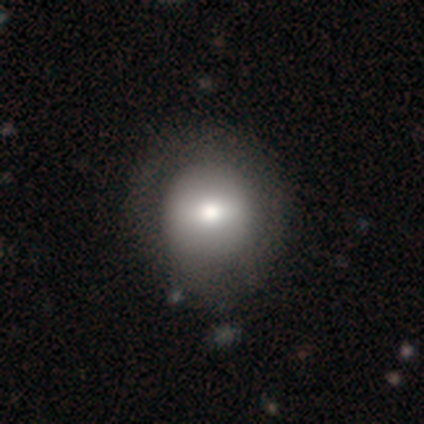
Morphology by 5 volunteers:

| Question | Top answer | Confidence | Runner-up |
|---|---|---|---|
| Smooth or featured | smooth | 100% | — |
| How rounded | round | 60% | in between (40%) |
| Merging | minor disturbance | 60% | none (20%) |